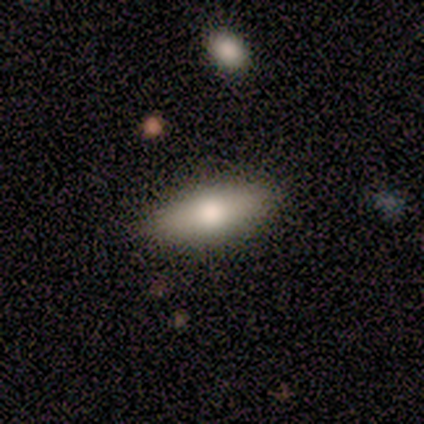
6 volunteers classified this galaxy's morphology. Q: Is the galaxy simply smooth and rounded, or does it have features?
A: smooth — 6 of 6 (100%).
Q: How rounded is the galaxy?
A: in between — 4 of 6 (67%).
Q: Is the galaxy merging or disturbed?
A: none — 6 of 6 (100%).